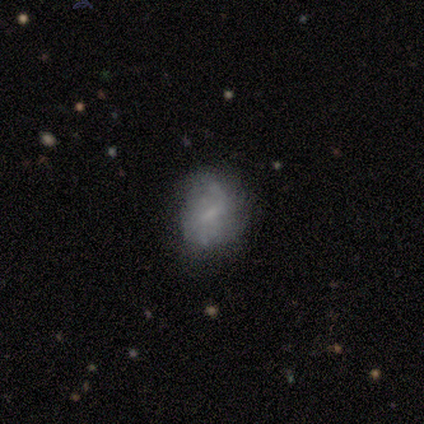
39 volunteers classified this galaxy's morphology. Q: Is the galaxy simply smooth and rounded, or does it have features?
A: featured or disk — 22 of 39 (56%).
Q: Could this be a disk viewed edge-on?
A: no — 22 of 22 (100%).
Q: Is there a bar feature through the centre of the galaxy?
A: weak — 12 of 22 (55%).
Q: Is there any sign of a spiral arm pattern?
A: yes — 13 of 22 (59%).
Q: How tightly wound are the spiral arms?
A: loose — 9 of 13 (69%).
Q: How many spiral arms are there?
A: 2 — 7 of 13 (54%).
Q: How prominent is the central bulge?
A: none — 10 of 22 (45%).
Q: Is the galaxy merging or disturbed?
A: none — 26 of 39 (67%).